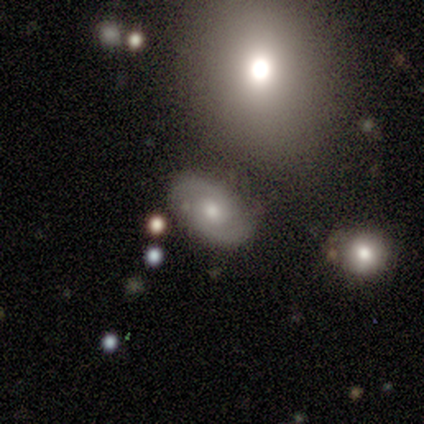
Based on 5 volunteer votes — This is likely a featured or disk galaxy (60%). It is clearly not viewed edge-on (100%). Bar: likely weak (67%). Spiral arm pattern: likely yes (67%). Spiral arm count: clearly 2 (100%). Spiral winding: possibly tight (50%, tied with loose). Central bulge: clearly small (100%). Merging: clearly none (100%).